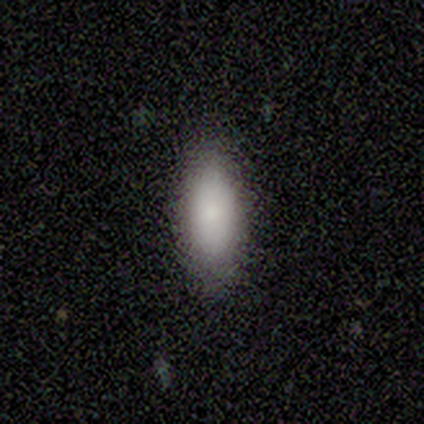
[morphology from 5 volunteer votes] Volunteers were most divided on "how rounded": in between: 80%, cigar-shaped: 20%, round: 0%. More confident: smooth or featured — smooth (100%); merging — none (100%).